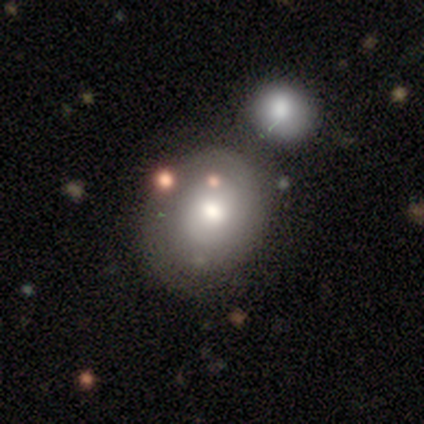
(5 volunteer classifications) smooth_or_featured: featured or disk (p=0.60) [alt: smooth p=0.20]
disk_edge_on: no (p=1.00)
bar: no (p=1.00)
has_spiral_arms: yes (p=1.00)
spiral_winding: tight (p=0.33) [tied with: medium p=0.33, loose p=0.33]
spiral_arm_count: 2 (p=1.00)
bulge_size: moderate (p=0.67) [alt: large p=0.33]
merging: none (p=0.50) [tied with: merger p=0.50]